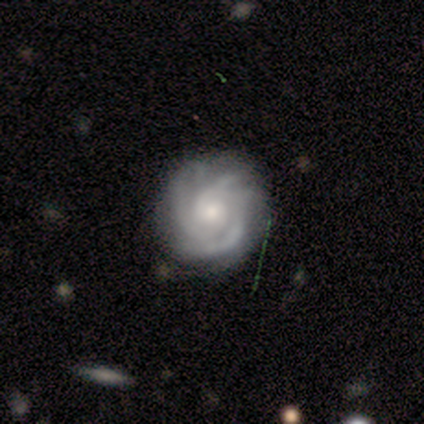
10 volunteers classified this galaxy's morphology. smooth_or_featured: featured or disk (p=1.00)
disk_edge_on: no (p=1.00)
bar: weak (p=0.50) [tied with: no p=0.50]
has_spiral_arms: yes (p=1.00)
spiral_winding: tight (p=0.90) [alt: medium p=0.10]
spiral_arm_count: can't tell (p=0.60) [alt: 4 p=0.20]
bulge_size: small (p=0.70) [alt: moderate p=0.30]
merging: none (p=0.90) [alt: minor disturbance p=0.10]